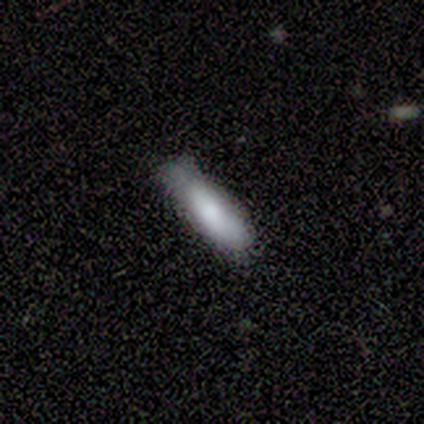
Morphology: type=smooth (60%); roundness=cigar-shaped (67%); merging=minor disturbance (80%).